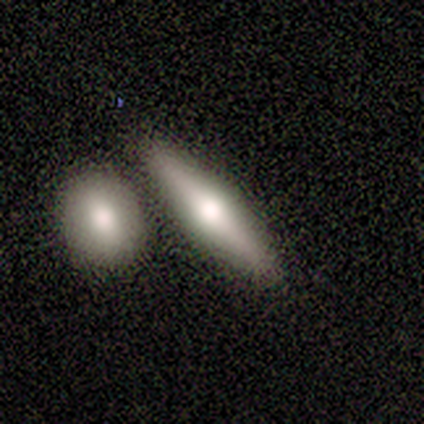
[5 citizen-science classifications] Smooth or featured?
  - featured or disk: 80% *
  - smooth: 20%
  - star or artifact: 0%
Edge-on disk?
  - yes: 100% *
  - no: 0%
Edge-on bulge?
  - rounded: 75% *
  - none: 25%
  - boxy: 0%
Merging?
  - none: 60% *
  - merger: 40%
  - minor disturbance: 0%
  - major disturbance: 0%